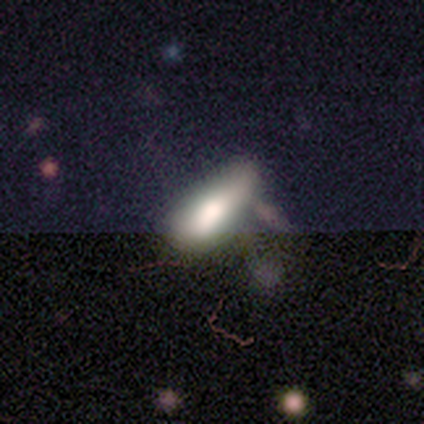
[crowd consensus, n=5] Morphology: type=smooth (100%); roundness=in between (60%); merging=none (60%).